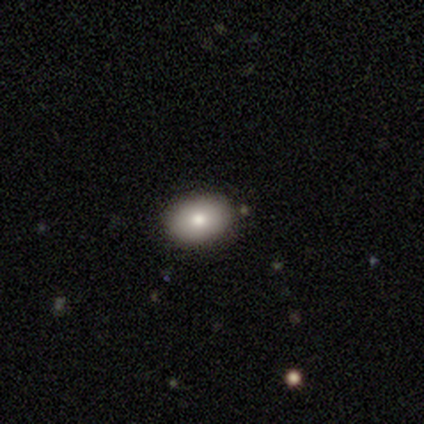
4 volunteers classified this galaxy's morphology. A smooth galaxy with no disk features (100%) that is in between round and cigar-shaped (100%).

Vote fractions:
- Smooth or featured? smooth: 100% / featured or disk: 0% / star or artifact: 0%
- How rounded? in between: 100% / round: 0% / cigar-shaped: 0%
- Merging? none: 100% / minor disturbance: 0% / major disturbance: 0% / merger: 0%